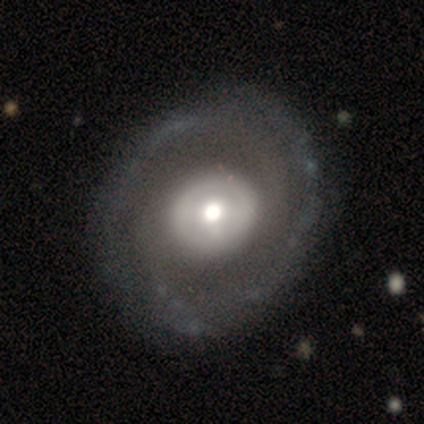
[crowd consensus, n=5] smooth_or_featured: featured or disk (p=0.80) [alt: smooth p=0.20]
disk_edge_on: no (p=1.00)
bar: no (p=0.50) [alt: strong p=0.25]
has_spiral_arms: yes (p=0.75) [alt: no p=0.25]
spiral_winding: tight (p=0.67) [alt: medium p=0.33]
spiral_arm_count: 1 (p=0.33) [tied with: 2 p=0.33, 3 p=0.33]
bulge_size: moderate (p=0.75) [alt: small p=0.25]
merging: none (p=1.00)